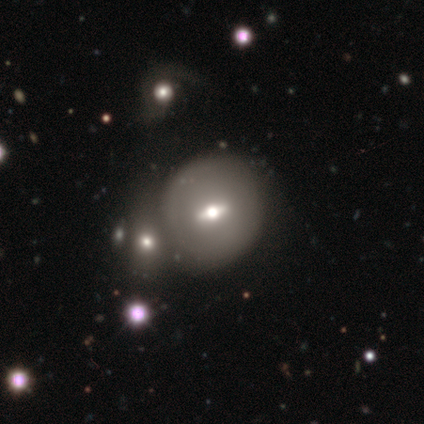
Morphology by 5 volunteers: Smooth or featured?
  - featured or disk: 60% *
  - smooth: 40%
  - star or artifact: 0%
Edge-on disk?
  - no: 67% *
  - yes: 33%
Bar?
  - strong: 50% * (tied)
  - weak: 50% * (tied)
  - no: 0%
Spiral arms?
  - yes: 50% * (tied)
  - no: 50% * (tied)
Spiral winding?
  - medium: 100% *
  - tight: 0%
  - loose: 0%
Spiral arm count?
  - 2: 100% *
  - 1: 0%
  - 3: 0%
  - 4: 0%
  - more than 4: 0%
  - can't tell: 0%
Bulge size?
  - moderate: 50% * (tied)
  - small: 50% * (tied)
  - dominant: 0%
  - large: 0%
  - none: 0%
Merging?
  - none: 80% *
  - merger: 20%
  - minor disturbance: 0%
  - major disturbance: 0%